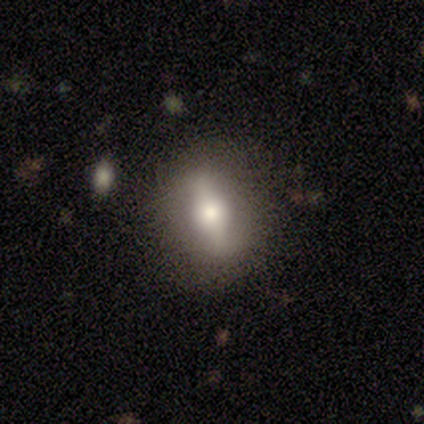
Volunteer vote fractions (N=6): Smooth or featured? smooth (50%)
How rounded? in between (67%)
Merging? none (80%)